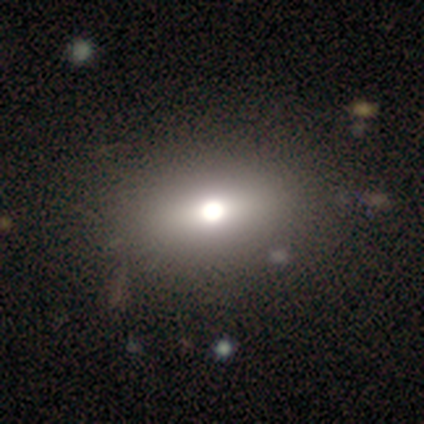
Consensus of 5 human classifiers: This appears to be a smooth galaxy with no disk features (40%, tied with star or artifact) that is round (100%). Merging: none (100%).